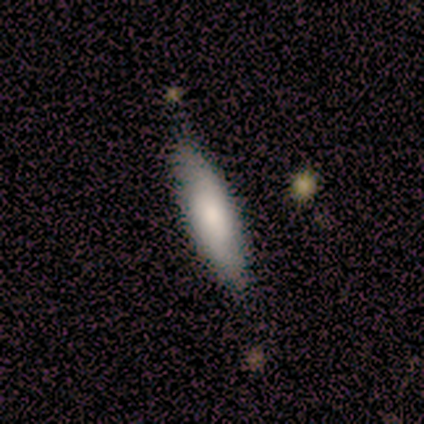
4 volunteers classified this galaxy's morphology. smooth_or_featured: smooth (p=0.50) [tied with: featured or disk p=0.50]
how_rounded: in between (p=0.50) [tied with: cigar-shaped p=0.50]
merging: none (p=1.00)